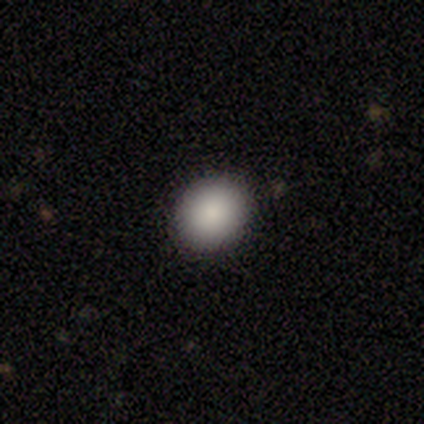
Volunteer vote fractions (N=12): Smooth or featured?
  - smooth: 92% *
  - star or artifact: 8%
  - featured or disk: 0%
How rounded?
  - round: 82% *
  - in between: 18%
  - cigar-shaped: 0%
Merging?
  - none: 100% *
  - minor disturbance: 0%
  - major disturbance: 0%
  - merger: 0%